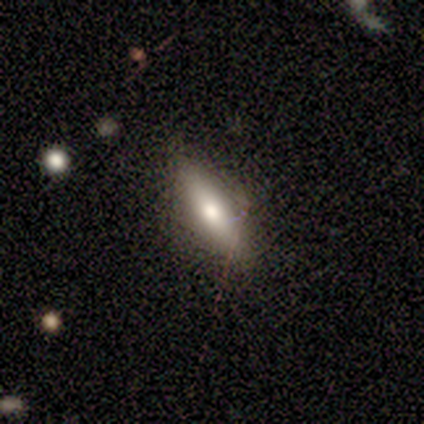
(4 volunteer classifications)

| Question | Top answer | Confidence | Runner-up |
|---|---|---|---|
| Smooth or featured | smooth | 50% | tied: featured or disk (50%) |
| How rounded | in between | 50% | tied: cigar-shaped (50%) |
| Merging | none | 100% | — |